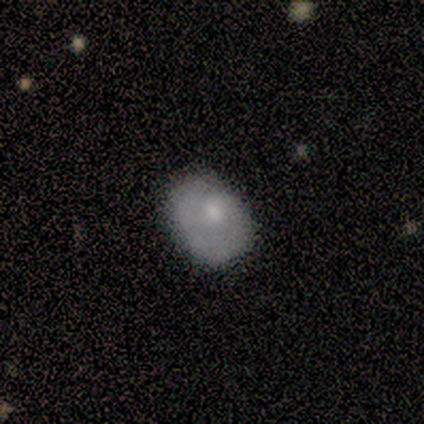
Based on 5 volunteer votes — smooth 100%, featured or disk 0%, star or artifact 0%. Down the decision tree: how rounded — in between (60%); merging — none (60%).